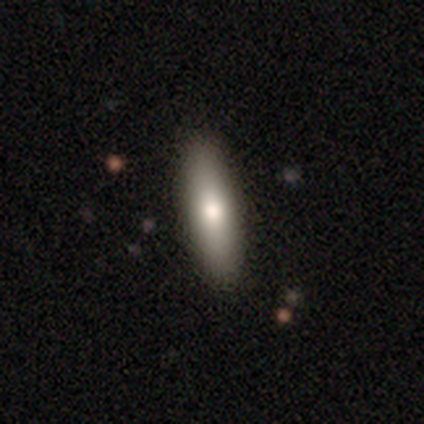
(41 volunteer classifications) Q: Smooth or featured?
A: smooth (83%); runner-up: featured or disk (17%)
Q: How rounded?
A: cigar-shaped (56%); runner-up: in between (44%)
Q: Merging?
A: none (76%); runner-up: minor disturbance (2%)